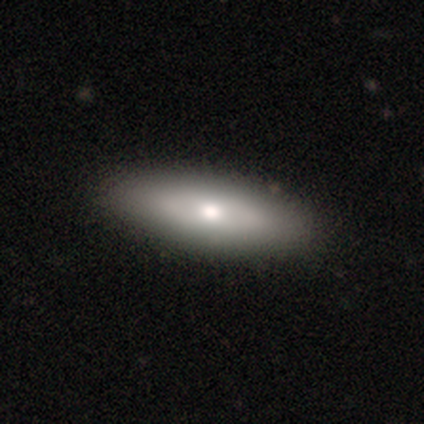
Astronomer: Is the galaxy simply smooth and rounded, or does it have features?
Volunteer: smooth — 76%.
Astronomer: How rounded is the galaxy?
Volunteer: in between — 59% (runner-up: cigar-shaped, 41%).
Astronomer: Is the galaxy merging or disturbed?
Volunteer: none — 89%.